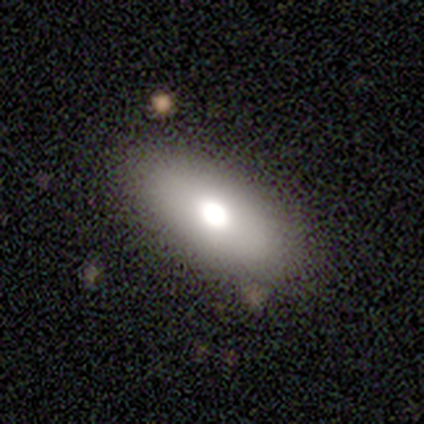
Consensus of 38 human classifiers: Q: Smooth or featured?
A: smooth (63%); runner-up: star or artifact (24%)
Q: How rounded?
A: in between (92%); runner-up: round (8%)
Q: Merging?
A: none (83%); runner-up: minor disturbance (10%)